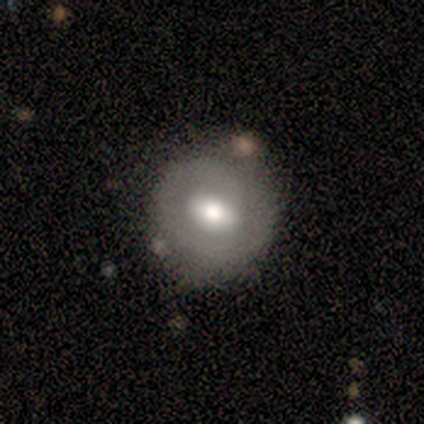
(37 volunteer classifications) Overall: smooth (62%; featured or disk 35%). How rounded: round (70%; in between 30%). Merging: none (78%).